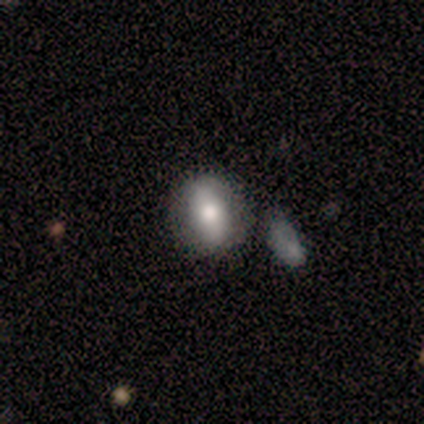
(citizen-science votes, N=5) smooth-or-featured: smooth: 80% | star or artifact: 20% | featured or disk: 0%
  how-rounded: in between: 75% | round: 25% | cigar-shaped: 0%
  merging: none: 75% | minor disturbance: 25% | major disturbance: 0% | merger: 0%